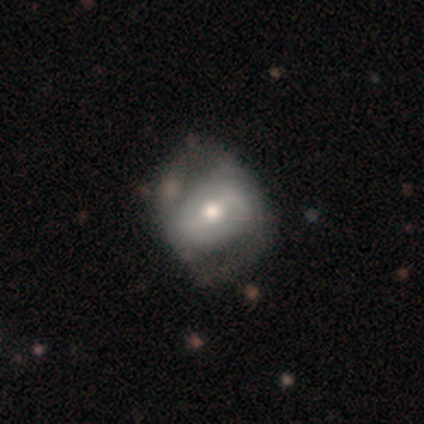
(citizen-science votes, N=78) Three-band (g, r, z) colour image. It shows a featured or disk galaxy (55%) with a weak bar (45%), 2 (52%) medium (48%) spiral arms (55%) and a moderate central bulge (48%). Merging: none (54%).